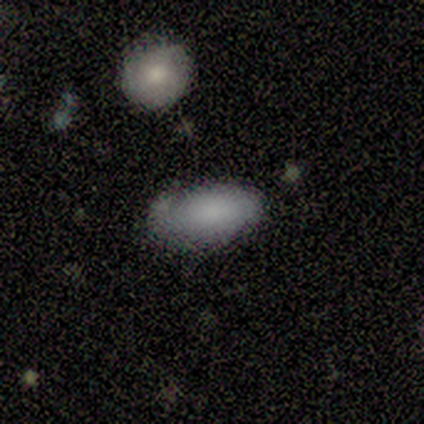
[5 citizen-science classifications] A smooth galaxy with no disk features (80%) that is in between round and cigar-shaped (75%). Merging: none (80%).